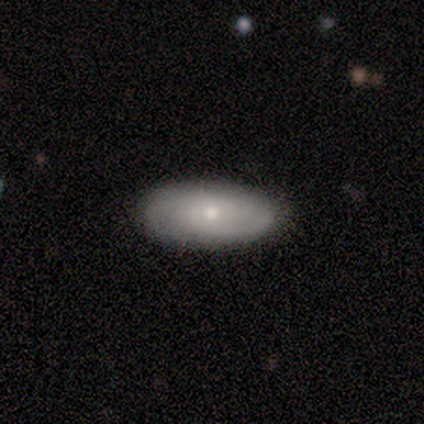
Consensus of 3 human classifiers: smooth 67%, featured or disk 33%, star or artifact 0%. Down the decision tree: how rounded — in between (100%); merging — none (100%).